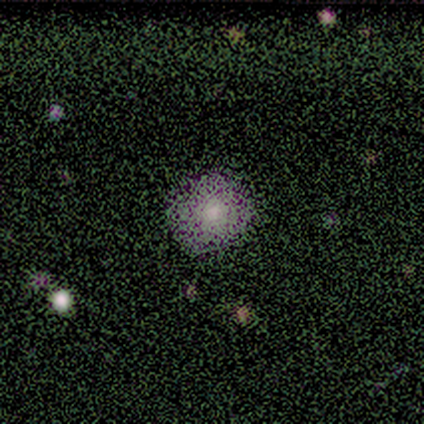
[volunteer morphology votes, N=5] Smooth or featured? 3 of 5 (60%) said smooth. How rounded? 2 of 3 (67%) said round. Merging? 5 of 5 (100%) said none.